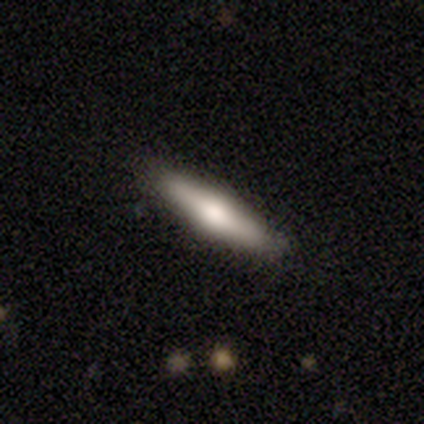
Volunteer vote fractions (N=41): This appears to be a smooth galaxy with no disk features (51%) that is cigar-shaped (62%). Merging: none (92%).